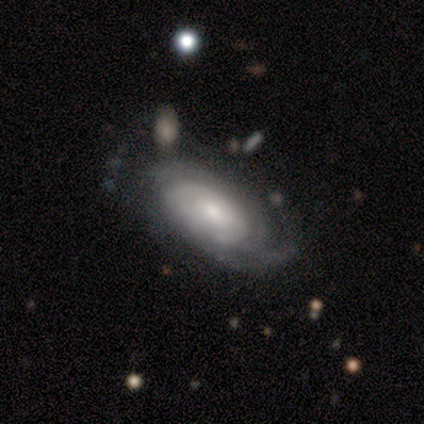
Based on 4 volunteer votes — A smooth galaxy with no disk features (50%) that is in between round and cigar-shaped (100%).

Vote fractions:
- Smooth or featured? smooth: 50% / featured or disk: 25% / star or artifact: 25%
- How rounded? in between: 100% / round: 0% / cigar-shaped: 0%
- Merging? none: 67% / major disturbance: 33% / minor disturbance: 0% / merger: 0%